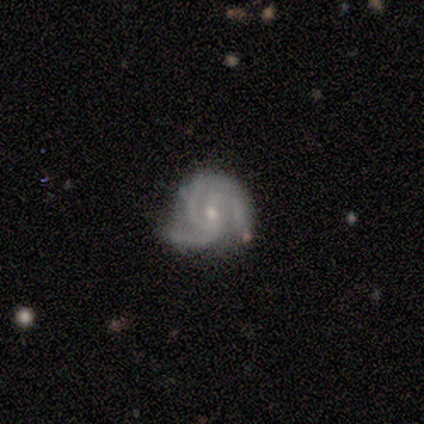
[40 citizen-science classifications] Overall: featured or disk (92%). Edge-on disk: no (100%). Bar: no (70%). Spiral arms: yes (100%). Spiral arm count: 3 (84%). Spiral winding: medium (49%; tight 46%). Bulge size: small (62%; moderate 38%). Merging: none (54%; minor disturbance 31%).